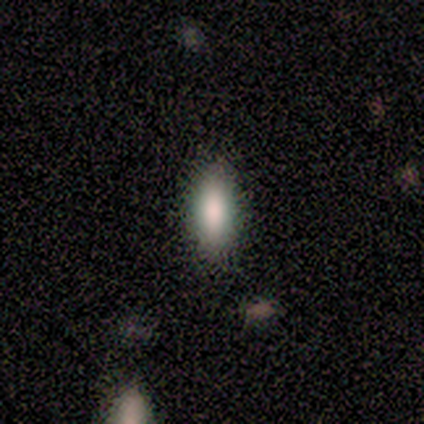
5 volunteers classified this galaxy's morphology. This appears to be a smooth galaxy with no disk features (100%) that is in between round and cigar-shaped (60%). Merging: none (100%).